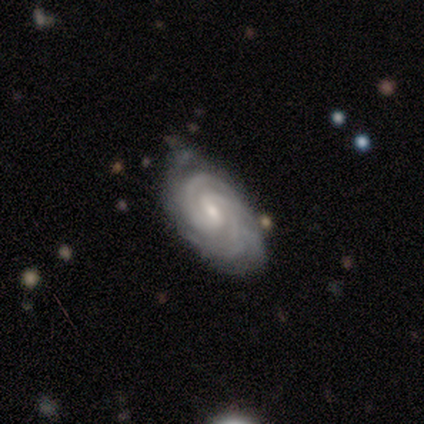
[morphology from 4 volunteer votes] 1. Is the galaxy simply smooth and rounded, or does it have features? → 75% featured or disk, 25% smooth, 0% star or artifact.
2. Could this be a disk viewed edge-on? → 100% no, 0% yes.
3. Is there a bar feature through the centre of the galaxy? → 67% no, 33% weak, 0% strong.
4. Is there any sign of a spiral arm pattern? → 100% yes, 0% no.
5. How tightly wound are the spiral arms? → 67% tight, 33% medium, 0% loose.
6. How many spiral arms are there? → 100% 2, 0% 1, 0% 3, 0% 4, 0% more than 4, 0% can't tell.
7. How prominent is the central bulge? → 67% small, 33% moderate, 0% dominant, 0% large, 0% none.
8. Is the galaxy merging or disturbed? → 75% minor disturbance, 25% none, 0% major disturbance, 0% merger.